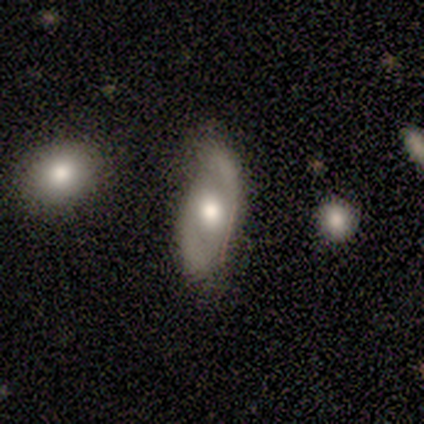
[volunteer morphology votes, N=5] Smooth or featured? featured or disk (60%)
Edge-on disk? no (100%)
Bar? no (67%)
Spiral arms? yes (67%)
Spiral winding? tight (50%, tied with medium)
Spiral arm count? 2 (50%, tied with can't tell)
Bulge size? moderate (100%)
Merging? none (40%, tied with minor disturbance)